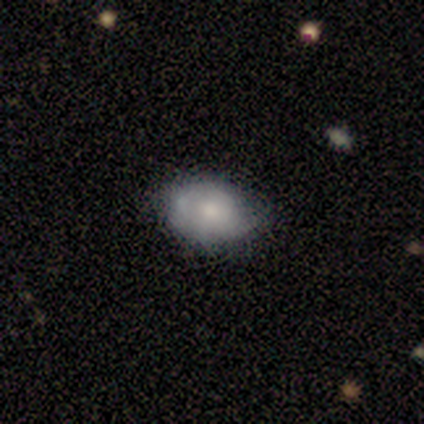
Smooth or featured: smooth — 60% (featured or disk — 40%)
How rounded: in between — 100%
Merging: none — 80% (minor disturbance — 20%)